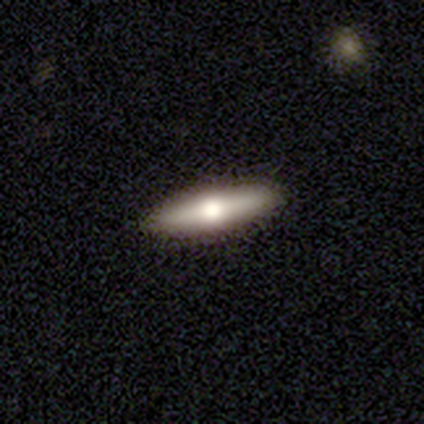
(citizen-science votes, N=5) This appears to be a smooth galaxy with no disk features (60%) that is cigar-shaped (67%). Merging: none (60%).